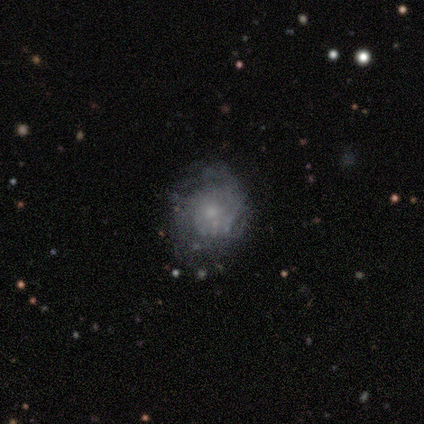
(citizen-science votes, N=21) Smooth or featured?
  - smooth: 48% *
  - featured or disk: 33%
  - star or artifact: 19%
How rounded?
  - round: 80% *
  - in between: 20%
  - cigar-shaped: 0%
Merging?
  - none: 59% *
  - minor disturbance: 29%
  - major disturbance: 12%
  - merger: 0%